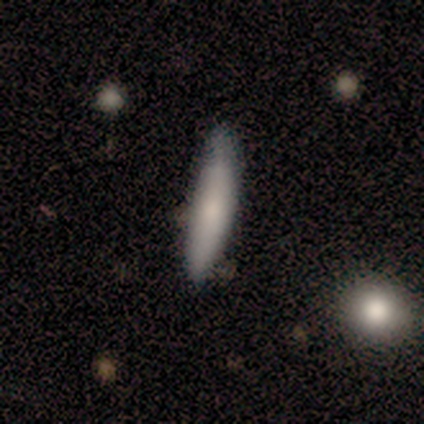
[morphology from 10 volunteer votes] Smooth or featured? smooth (70%)
How rounded? cigar-shaped (86%)
Merging? none (90%)